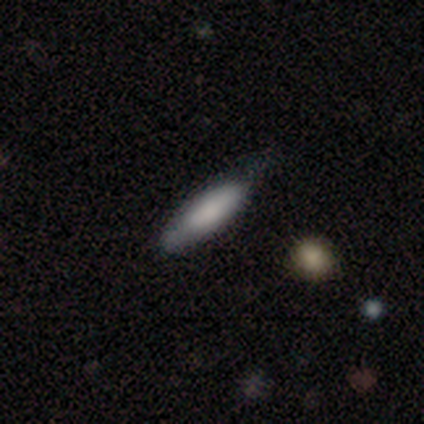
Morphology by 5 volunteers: type=smooth (100%); roundness=cigar-shaped (60%); merging=none (80%).